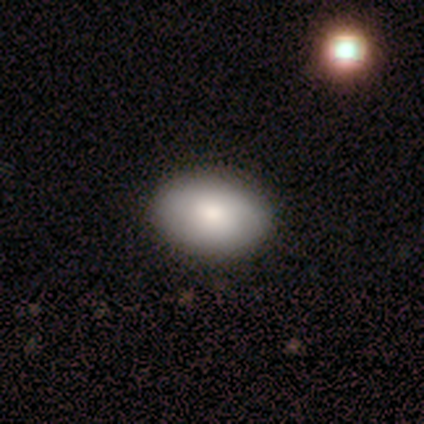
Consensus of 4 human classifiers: Smooth or featured: smooth — 75% (featured or disk — 25%)
How rounded: in between — 100%
Merging: none — 75% (minor disturbance — 25%)